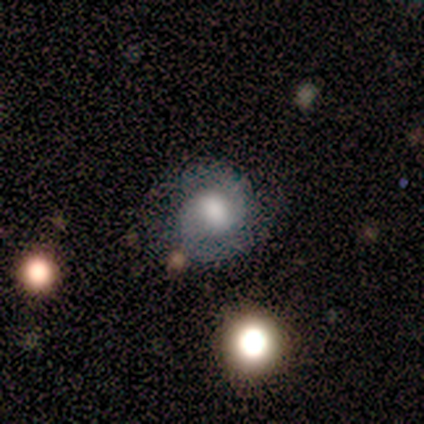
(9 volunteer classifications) Smooth or featured: featured or disk — 89% (smooth — 11%)
Edge-on disk: no — 100%
Bar: weak — 75% (strong — 12%)
Spiral arms: yes — 88% (no — 12%)
Spiral winding: tight — 71% (medium — 14%)
Spiral arm count: 2 — 100%
Bulge size: large — 50% (moderate — 38%)
Merging: none — 78% (minor disturbance — 22%)